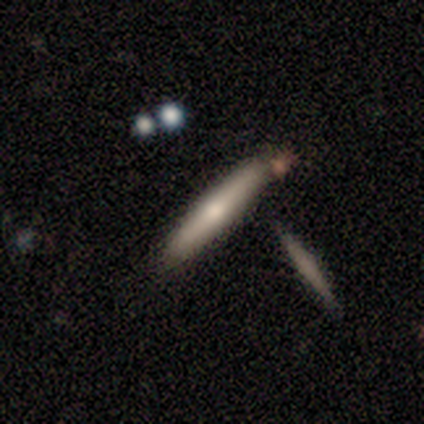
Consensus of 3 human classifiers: Smooth or featured: featured or disk — 100%
Edge-on disk: yes — 100%
Edge-on bulge: rounded — 100%
Merging: none — 67% (minor disturbance — 33%)